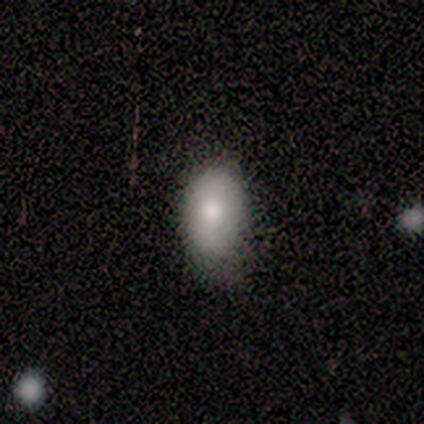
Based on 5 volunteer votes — Smooth or featured?
  - smooth: 80% *
  - featured or disk: 20%
  - star or artifact: 0%
How rounded?
  - in between: 100% *
  - round: 0%
  - cigar-shaped: 0%
Merging?
  - none: 80% *
  - minor disturbance: 20%
  - major disturbance: 0%
  - merger: 0%